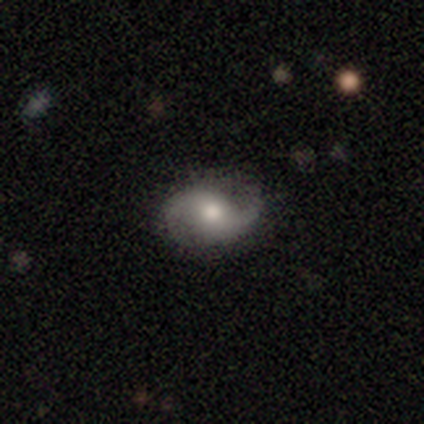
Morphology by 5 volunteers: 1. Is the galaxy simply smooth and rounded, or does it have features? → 60% featured or disk, 40% smooth, 0% star or artifact.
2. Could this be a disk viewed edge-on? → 100% no, 0% yes.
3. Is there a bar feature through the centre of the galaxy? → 67% weak, 33% no, 0% strong.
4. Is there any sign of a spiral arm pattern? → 67% yes, 33% no.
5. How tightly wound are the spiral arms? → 50% medium (tied), 50% loose (tied), 0% tight.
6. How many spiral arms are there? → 100% 2, 0% 1, 0% 3, 0% 4, 0% more than 4, 0% can't tell.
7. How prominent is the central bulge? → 67% small, 33% large, 0% dominant, 0% moderate, 0% none.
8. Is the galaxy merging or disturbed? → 60% none, 20% minor disturbance, 20% major disturbance, 0% merger.